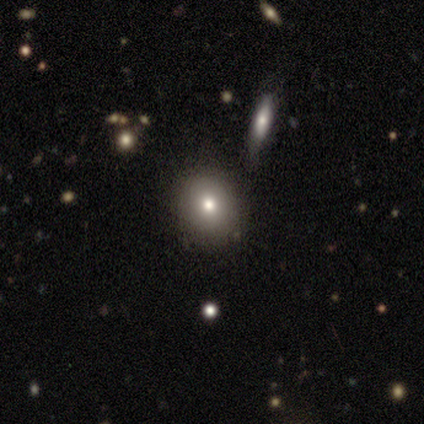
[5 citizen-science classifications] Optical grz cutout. It shows a smooth galaxy with no disk features (40%, tied with star or artifact) that is round (50%, tied with in between). Merging: none (67%).